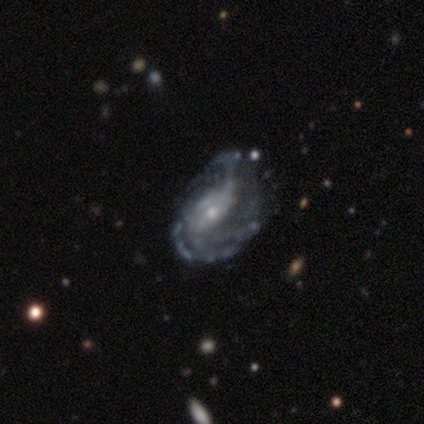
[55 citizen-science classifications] smooth-or-featured: featured or disk: 85% | smooth: 9% | star or artifact: 5%
  disk-edge-on: no: 100% | yes: 0%
    bar: no: 47% | weak: 34% | strong: 19%
    has-spiral-arms: yes: 89% | no: 11%
      spiral-winding: medium: 48% | loose: 33% | tight: 19%
      spiral-arm-count: 2: 26% | 3: 24% | can't tell: 24% | more than 4: 17% | 4: 7% | 1: 2%
    bulge-size: small: 64% | moderate: 30% | large: 4% | none: 2% | dominant: 0%
  merging: none: 44% | minor disturbance: 31% | major disturbance: 25% | merger: 0%